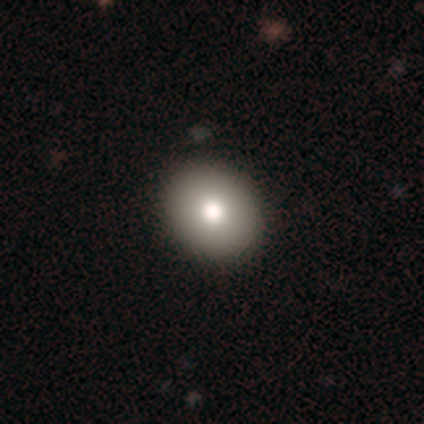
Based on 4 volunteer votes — smooth-or-featured: smooth: 100% | featured or disk: 0% | star or artifact: 0%
  how-rounded: round: 100% | in between: 0% | cigar-shaped: 0%
  merging: none: 75% | major disturbance: 25% | minor disturbance: 0% | merger: 0%